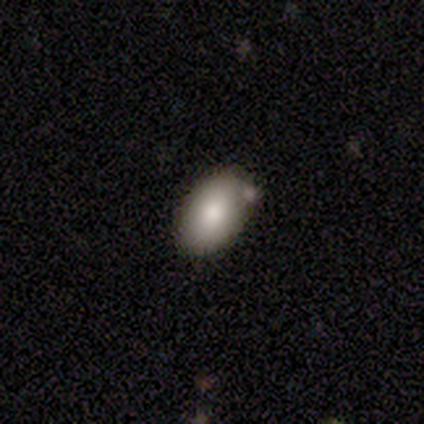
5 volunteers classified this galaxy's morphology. Smooth or featured? smooth (80%)
How rounded? in between (100%)
Merging? none (75%)